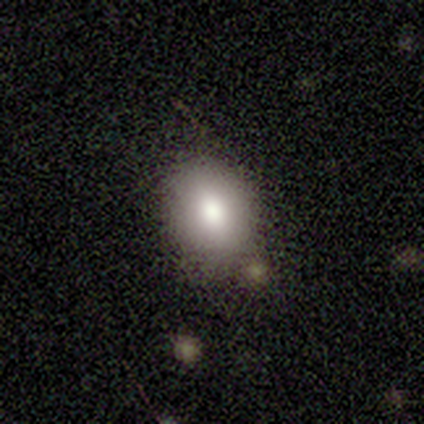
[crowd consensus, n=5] This is likely a smooth galaxy (60%). How rounded: likely in between (67%). Merging: clearly none (100%).